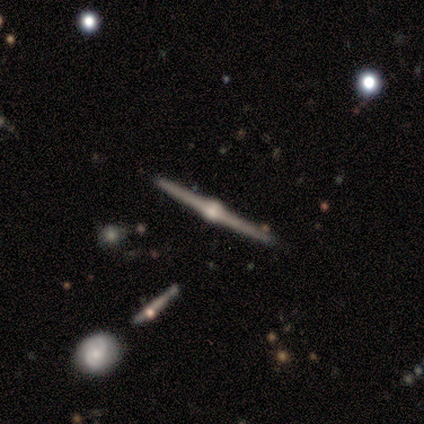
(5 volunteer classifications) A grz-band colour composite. It shows a featured or disk galaxy (100%) viewed edge-on (100%) with a rounded central bulge (100%). Merging: none (100%).